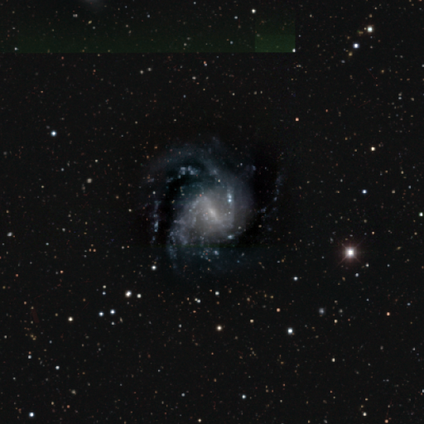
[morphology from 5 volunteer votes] This appears to be a featured or disk galaxy (100%) with a weak bar (60%), 2 (60%) medium (60%) spiral arms (100%) and a small central bulge (100%). Merging: none (60%).